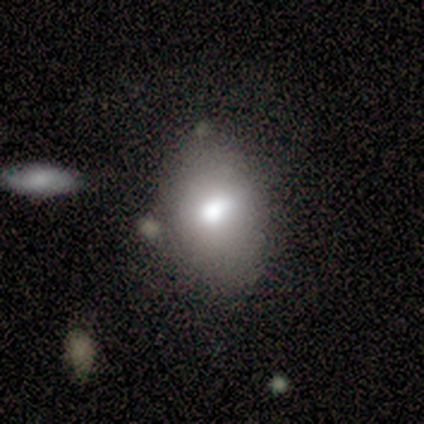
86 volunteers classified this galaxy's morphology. Smooth or featured: smooth — 71% (featured or disk — 19%)
How rounded: in between — 79% (round — 21%)
Merging: none — 64% (minor disturbance — 30%)